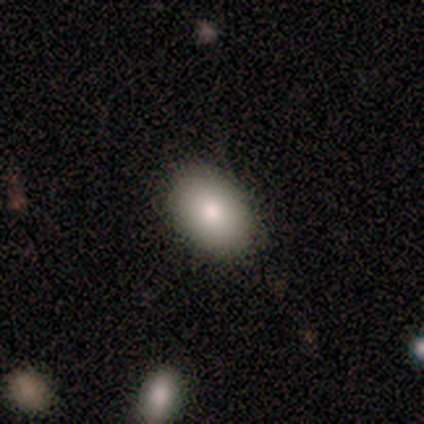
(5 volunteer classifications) This is clearly a smooth galaxy (100%). How rounded: clearly in between (100%). Merging: clearly none (100%).